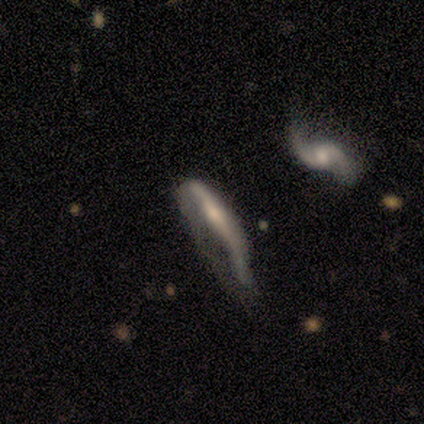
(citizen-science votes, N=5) This appears to be a featured or disk galaxy (100%) with no bar (100%), 2 (100%) loose (100%) spiral arms (50%, tied with no) and a small central bulge (75%). Merging: major disturbance (100%).